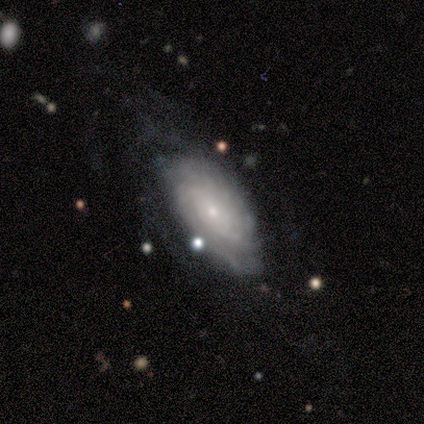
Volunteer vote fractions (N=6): featured or disk 83%, smooth 17%, star or artifact 0%. Down the decision tree: edge-on disk — no (100%); bar — no (80%); spiral arms — yes (100%); spiral arm count — 3 (40%, tied with can't tell); spiral winding — tight (80%); bulge size — small (100%); merging — none (83%).